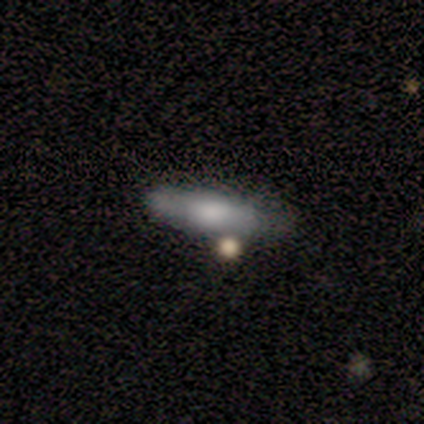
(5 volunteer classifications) This is likely a smooth galaxy (60%). How rounded: likely in between (67%). Merging: clearly none (100%).